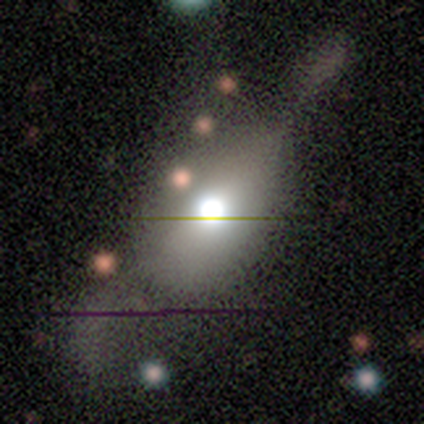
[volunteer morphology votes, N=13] This is possibly a smooth galaxy (54%). How rounded: clearly in between (100%). Merging: likely major disturbance (64%).